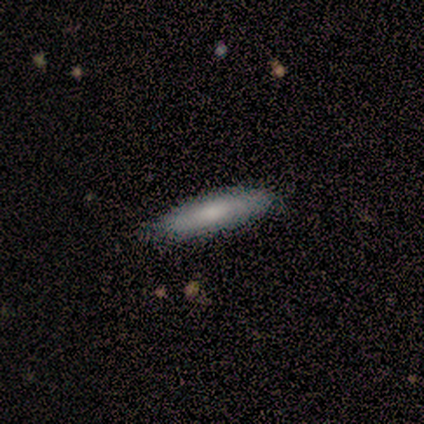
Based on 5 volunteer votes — This appears to be a smooth galaxy with no disk features (60%) that is cigar-shaped (67%). Merging: none (80%).